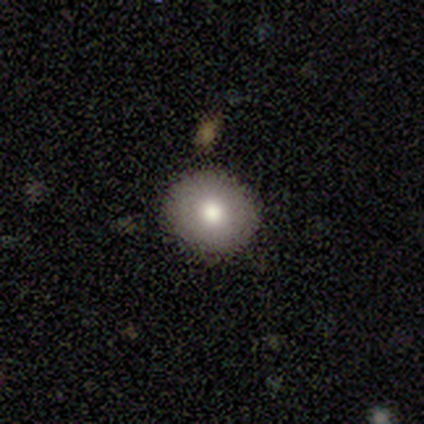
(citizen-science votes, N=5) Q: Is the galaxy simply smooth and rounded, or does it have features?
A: smooth — 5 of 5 (100%).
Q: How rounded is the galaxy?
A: round — 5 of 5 (100%).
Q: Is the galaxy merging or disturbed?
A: none — 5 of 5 (100%).